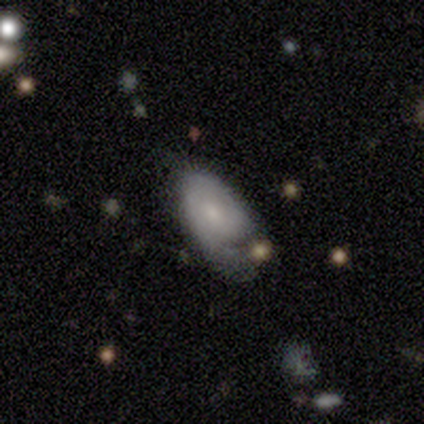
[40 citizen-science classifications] Smooth or featured? smooth (48%, tied with featured or disk)
How rounded? in between (89%)
Merging? minor disturbance (42%)